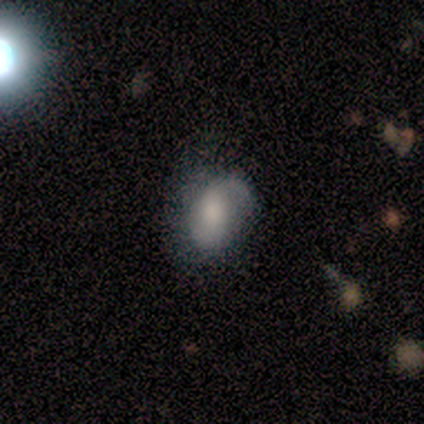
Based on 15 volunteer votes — Volunteers were most divided on "merging": minor disturbance: 46%, none: 31%, major disturbance: 23%, merger: 0%. More confident: how rounded — in between (100%); smooth or featured — smooth (53%).